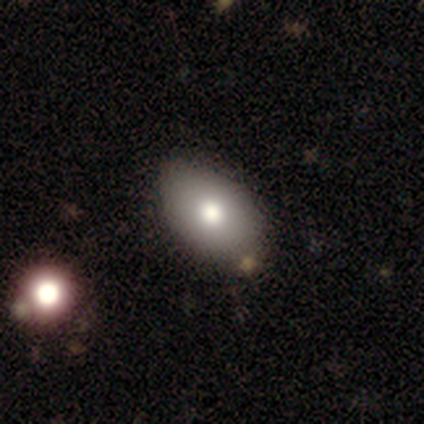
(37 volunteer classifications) A smooth galaxy with no disk features (84%) that is in between round and cigar-shaped (87%).

Vote fractions:
- Smooth or featured? smooth: 84% / featured or disk: 11% / star or artifact: 5%
- How rounded? in between: 87% / round: 10% / cigar-shaped: 3%
- Merging? none: 71% / minor disturbance: 6% / merger: 6% / major disturbance: 3%